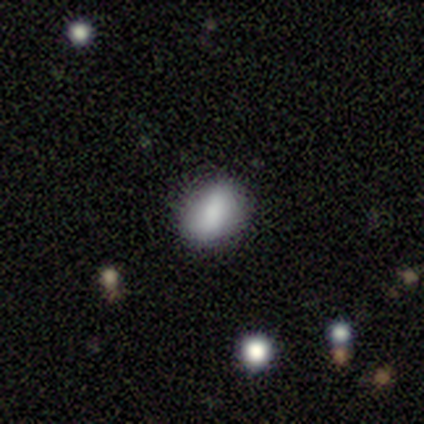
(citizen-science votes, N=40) Q: Smooth or featured?
A: smooth (80%); runner-up: featured or disk (10%)
Q: How rounded?
A: in between (59%); runner-up: round (41%)
Q: Merging?
A: none (72%); runner-up: minor disturbance (17%)